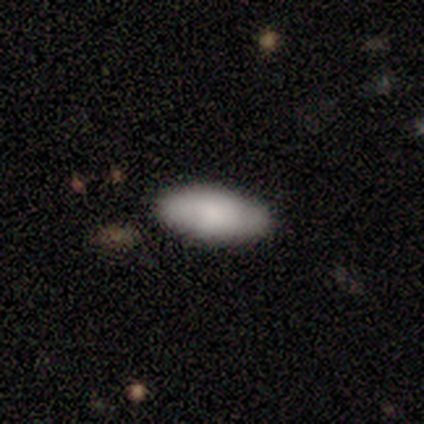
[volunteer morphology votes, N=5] Smooth or featured? 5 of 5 (100%) said smooth. How rounded? 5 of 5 (100%) said in between. Merging? 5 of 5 (100%) said none.